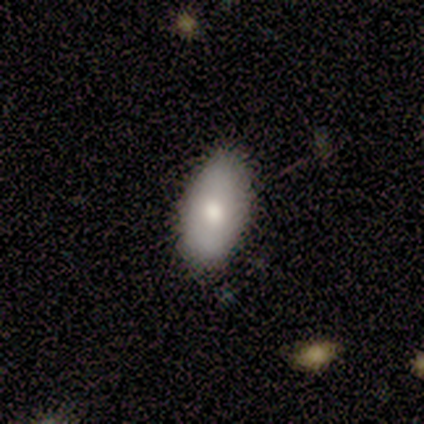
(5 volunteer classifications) This appears to be a smooth galaxy with no disk features (100%) that is in between round and cigar-shaped (80%). Merging: none (80%).